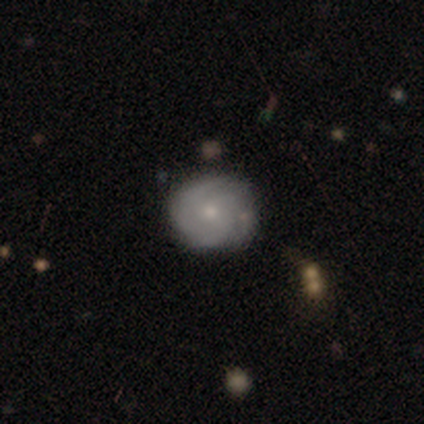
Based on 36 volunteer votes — featured or disk 69%, smooth 28%, star or artifact 3%. Down the decision tree: edge-on disk — no (96%); bar — no (71%); spiral arms — yes (96%); spiral arm count — can't tell (39%); spiral winding — tight (61%); bulge size — small (71%); merging — none (77%).